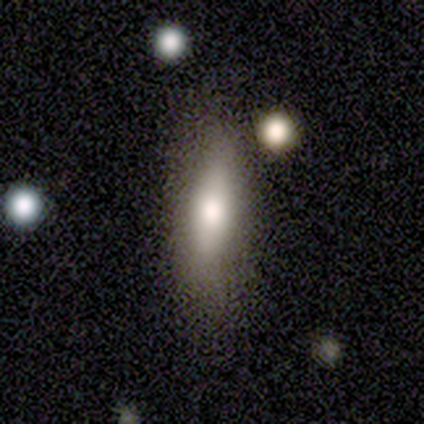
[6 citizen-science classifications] Volunteers were most divided on "smooth or featured": smooth: 50%, featured or disk: 33%, star or artifact: 17%. More confident: how rounded — in between (100%); merging — none (80%).